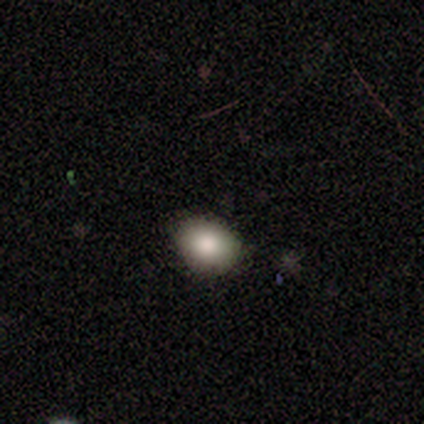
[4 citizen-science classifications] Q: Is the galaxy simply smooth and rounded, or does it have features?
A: smooth — 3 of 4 (75%).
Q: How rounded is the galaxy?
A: in between — 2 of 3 (67%).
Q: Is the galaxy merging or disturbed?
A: none — 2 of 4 (50%).